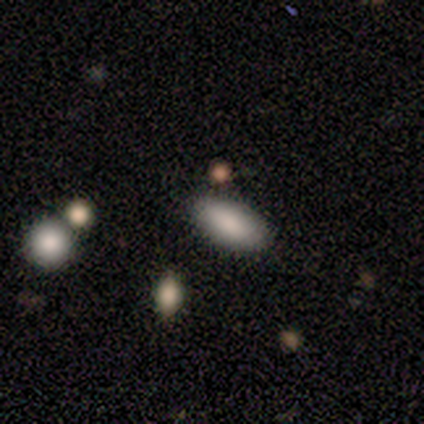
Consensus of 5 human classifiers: Smooth or featured? smooth (100%)
How rounded? in between (100%)
Merging? none (100%)